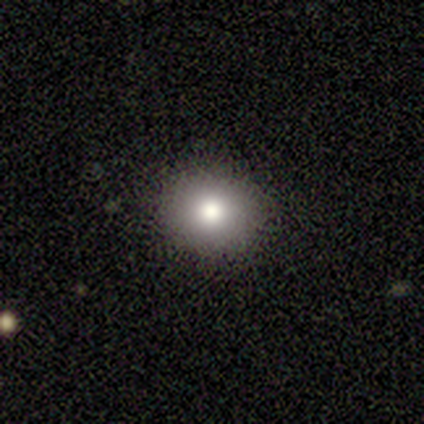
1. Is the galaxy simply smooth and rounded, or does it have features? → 75% smooth, 25% star or artifact, 0% featured or disk.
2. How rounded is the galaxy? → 67% round, 33% in between, 0% cigar-shaped.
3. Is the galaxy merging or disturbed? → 100% none, 0% minor disturbance, 0% major disturbance, 0% merger.